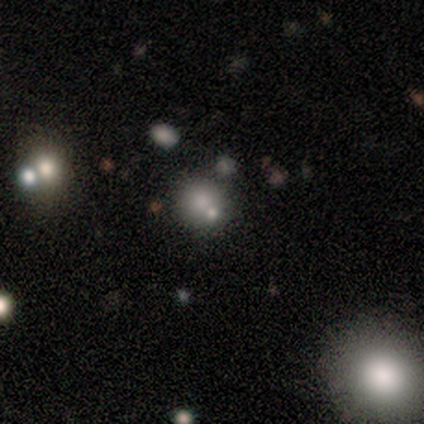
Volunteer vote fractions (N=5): Smooth or featured?
  - smooth: 80% *
  - featured or disk: 20%
  - star or artifact: 0%
How rounded?
  - round: 75% *
  - in between: 25%
  - cigar-shaped: 0%
Merging?
  - none: 40% * (tied)
  - minor disturbance: 40% * (tied)
  - merger: 20%
  - major disturbance: 0%